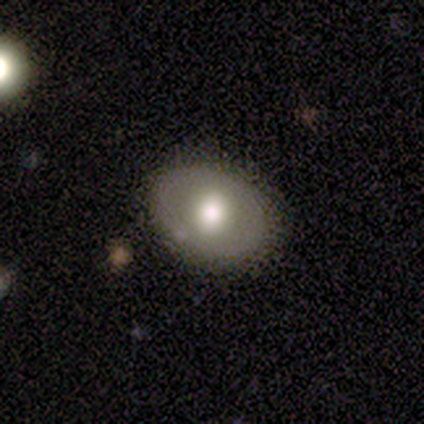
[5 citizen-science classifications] Smooth or featured?
  - featured or disk: 60% *
  - smooth: 40%
  - star or artifact: 0%
Edge-on disk?
  - no: 100% *
  - yes: 0%
Bar?
  - no: 100% *
  - strong: 0%
  - weak: 0%
Spiral arms?
  - no: 67% *
  - yes: 33%
Bulge size?
  - moderate: 67% *
  - large: 33%
  - dominant: 0%
  - small: 0%
  - none: 0%
Merging?
  - none: 100% *
  - minor disturbance: 0%
  - major disturbance: 0%
  - merger: 0%